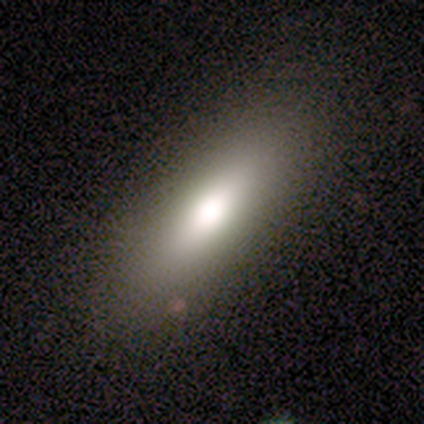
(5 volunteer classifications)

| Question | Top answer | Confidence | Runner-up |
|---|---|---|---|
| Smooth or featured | smooth | 60% | featured or disk (40%) |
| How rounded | in between | 67% | cigar-shaped (33%) |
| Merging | none | 80% | merger (20%) |